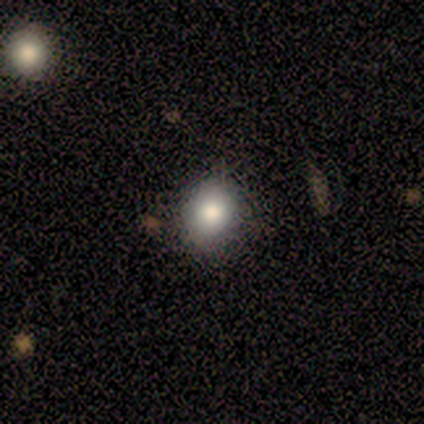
Overall: smooth (80%). How rounded: round (75%). Merging: none (75%).